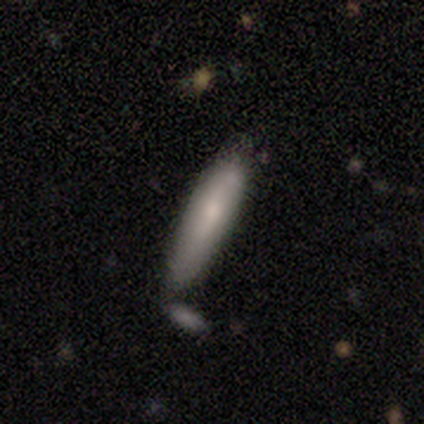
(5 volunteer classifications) smooth_or_featured: smooth (p=0.40) [tied with: featured or disk p=0.40]
how_rounded: cigar-shaped (p=1.00)
merging: none (p=0.50) [alt: minor disturbance p=0.25]